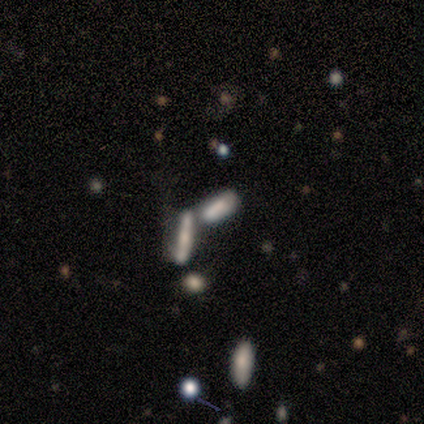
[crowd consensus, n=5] Smooth or featured? 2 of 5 (40%, tied with star or artifact) said smooth. How rounded? 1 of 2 (50%, tied with cigar-shaped) said in between. Merging? 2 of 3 (67%) said merger.